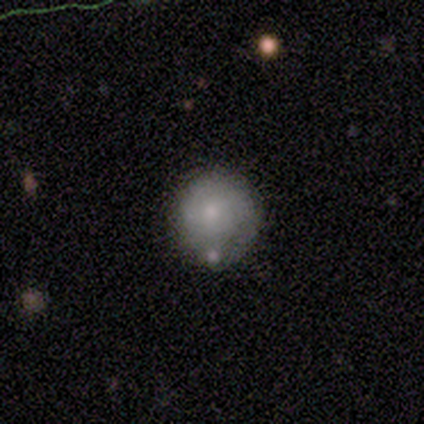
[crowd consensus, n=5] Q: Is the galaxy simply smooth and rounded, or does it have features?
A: smooth — 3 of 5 (60%).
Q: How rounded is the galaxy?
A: round — 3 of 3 (100%).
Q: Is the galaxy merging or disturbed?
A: none — 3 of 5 (60%).